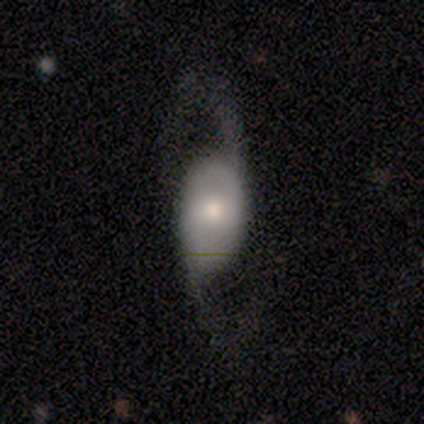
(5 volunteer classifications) Smooth or featured: smooth — 60% (featured or disk — 20%)
How rounded: in between — 100%
Merging: major disturbance — 75% (none — 25%)